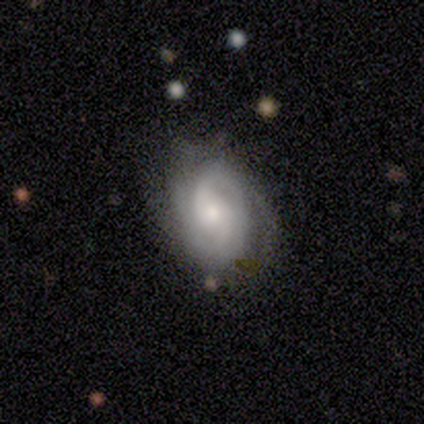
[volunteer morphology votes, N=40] Volunteers were most divided on "bulge size": moderate: 50%, small: 34%, large: 6%, none: 6%, dominant: 3%. More confident: edge-on disk — no (100%); spiral arms — yes (94%); smooth or featured — featured or disk (80%); bar — no (78%); spiral arm count — 2 (60%); spiral winding — tight (57%); merging — none (53%).